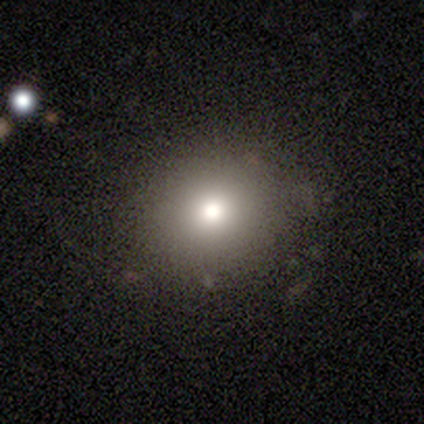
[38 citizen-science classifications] smooth_or_featured: smooth (p=0.63) [alt: featured or disk p=0.18]
how_rounded: round (p=0.83) [alt: in between p=0.17]
merging: none (p=0.84) [alt: minor disturbance p=0.13]